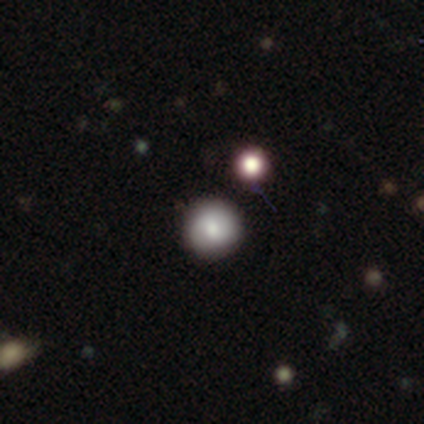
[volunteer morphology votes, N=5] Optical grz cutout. It shows a smooth galaxy with no disk features (100%) that is round (100%). Merging: none (100%).